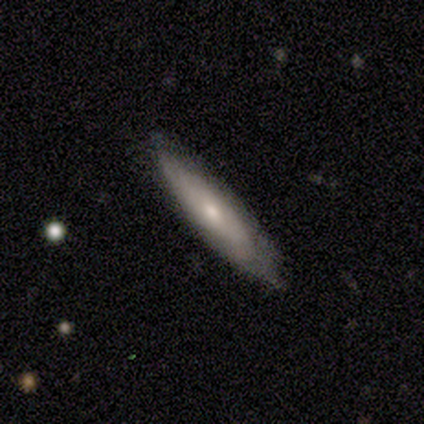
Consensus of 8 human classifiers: Overall: featured or disk (75%). Edge-on disk: yes (50%, tied with no). Edge-on bulge: rounded (100%). Merging: none (88%).